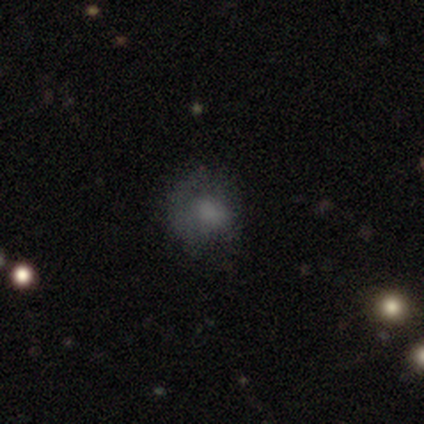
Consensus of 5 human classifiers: This is likely a smooth galaxy (60%). How rounded: likely round (67%). Merging: clearly none (100%).